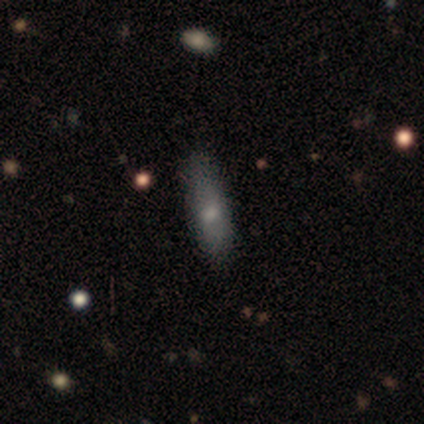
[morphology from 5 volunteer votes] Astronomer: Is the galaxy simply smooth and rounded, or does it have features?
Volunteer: smooth — 60%.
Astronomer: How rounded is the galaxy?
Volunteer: in between — 67%.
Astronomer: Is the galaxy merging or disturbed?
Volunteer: none — 100%.